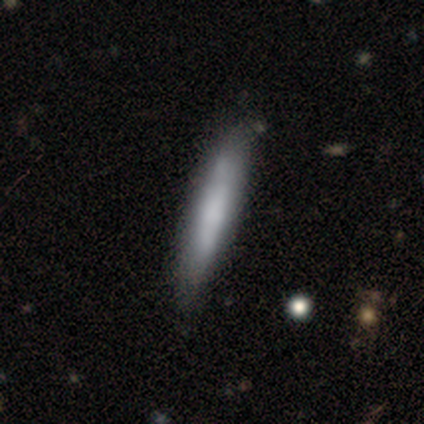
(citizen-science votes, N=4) Smooth or featured?
  - smooth: 100% *
  - featured or disk: 0%
  - star or artifact: 0%
How rounded?
  - cigar-shaped: 100% *
  - round: 0%
  - in between: 0%
Merging?
  - none: 50% * (tied)
  - minor disturbance: 50% * (tied)
  - major disturbance: 0%
  - merger: 0%